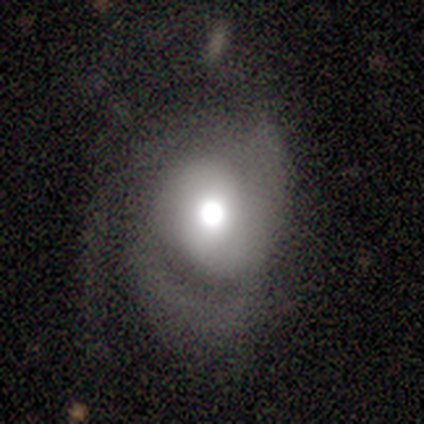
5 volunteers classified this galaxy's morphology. A featured or disk galaxy (80%) with no bar (100%), 2 (67%) medium (67%) spiral arms (75%) and a moderate central bulge (75%). Merging: none (60%).